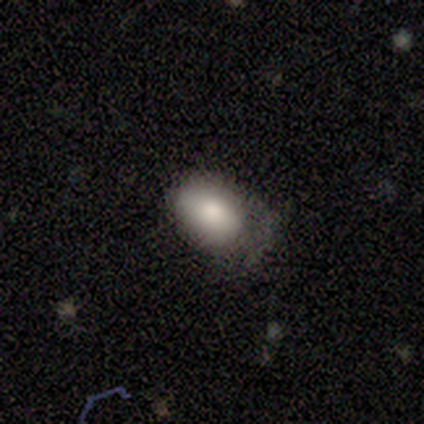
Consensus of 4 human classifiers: This appears to be a smooth galaxy with no disk features (100%) that is round (50%, tied with in between). Merging: minor disturbance (50%).